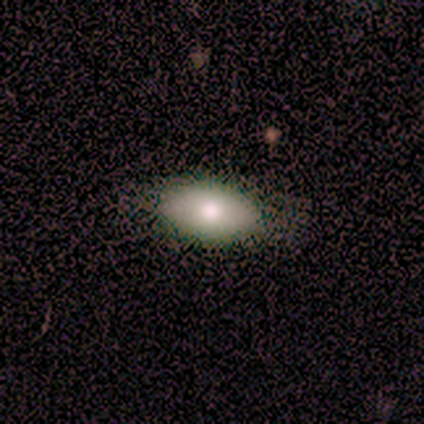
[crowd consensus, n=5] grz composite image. It shows a smooth galaxy with no disk features (100%) that is in between round and cigar-shaped (100%). Merging: none (80%).